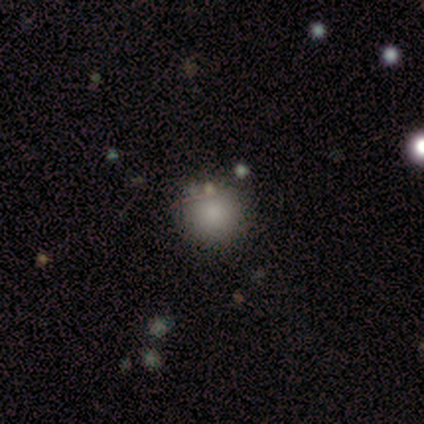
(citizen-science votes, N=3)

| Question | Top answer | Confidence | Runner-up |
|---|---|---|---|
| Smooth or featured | smooth | 67% | star or artifact (33%) |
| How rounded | round | 100% | — |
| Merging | none | 50% | tied: merger (50%) |